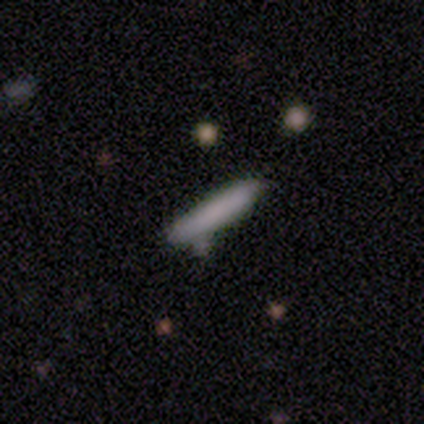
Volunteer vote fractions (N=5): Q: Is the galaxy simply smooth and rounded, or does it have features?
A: smooth — 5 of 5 (100%).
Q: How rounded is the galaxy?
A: cigar-shaped — 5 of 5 (100%).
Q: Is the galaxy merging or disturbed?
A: none — 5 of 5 (100%).